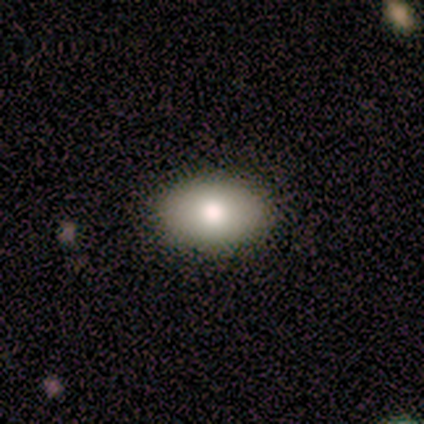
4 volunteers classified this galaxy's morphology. A smooth galaxy with no disk features (100%) that is in between round and cigar-shaped (75%). Merging: none (100%).